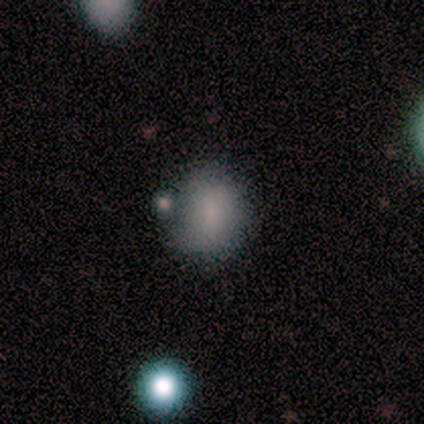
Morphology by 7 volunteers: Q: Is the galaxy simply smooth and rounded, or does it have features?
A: smooth — 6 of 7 (86%).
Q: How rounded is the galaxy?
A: round — 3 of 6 (50%, tied with in between).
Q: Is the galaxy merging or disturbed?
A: minor disturbance — 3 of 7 (43%, tied with merger).